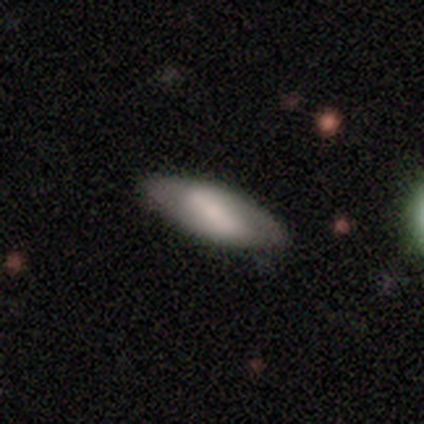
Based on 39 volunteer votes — A smooth galaxy with no disk features (56%) that is in between round and cigar-shaped (91%).

Vote fractions:
- Smooth or featured? smooth: 56% / featured or disk: 38% / star or artifact: 5%
- How rounded? in between: 91% / cigar-shaped: 9% / round: 0%
- Merging? none: 59% / minor disturbance: 16% / major disturbance: 3% / merger: 0%